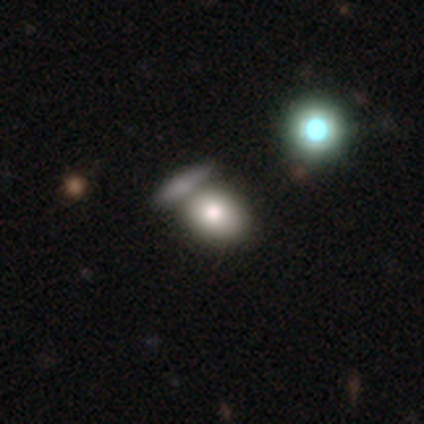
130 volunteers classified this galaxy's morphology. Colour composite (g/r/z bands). It shows a smooth galaxy with no disk features (77%) that is in between round and cigar-shaped (58%). Merging: none (47%).